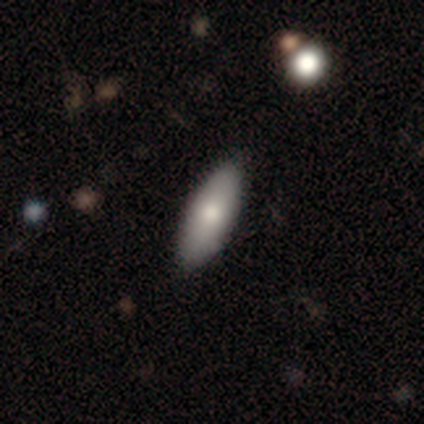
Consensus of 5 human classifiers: Overall: smooth (60%; featured or disk 40%). How rounded: in between (100%). Merging: none (80%).